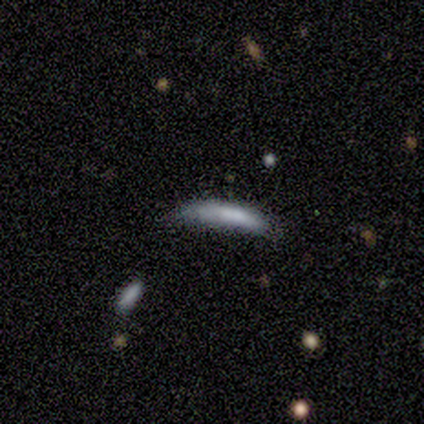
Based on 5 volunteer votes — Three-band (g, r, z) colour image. It shows a smooth galaxy with no disk features (60%) that is cigar-shaped (100%). Merging: none (50%, tied with minor disturbance).